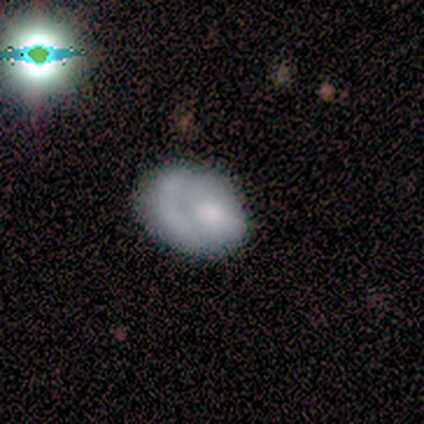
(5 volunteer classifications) smooth-or-featured: smooth: 60% | featured or disk: 20% | star or artifact: 20%
  how-rounded: in between: 67% | round: 33% | cigar-shaped: 0%
  merging: none: 50% | minor disturbance: 25% | major disturbance: 25% | merger: 0%